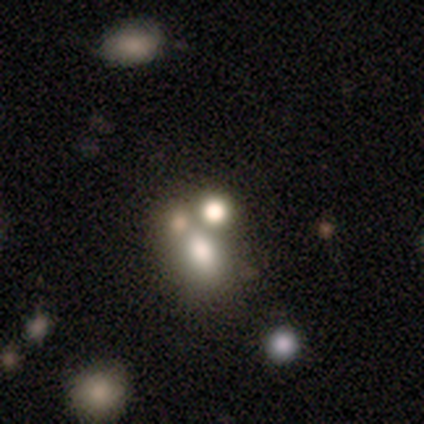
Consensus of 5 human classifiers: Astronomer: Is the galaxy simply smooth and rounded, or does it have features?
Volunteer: smooth — 60% (runner-up: star or artifact, 40%).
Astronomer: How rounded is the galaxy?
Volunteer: in between — 100%.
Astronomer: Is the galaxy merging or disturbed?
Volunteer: none — 67%.